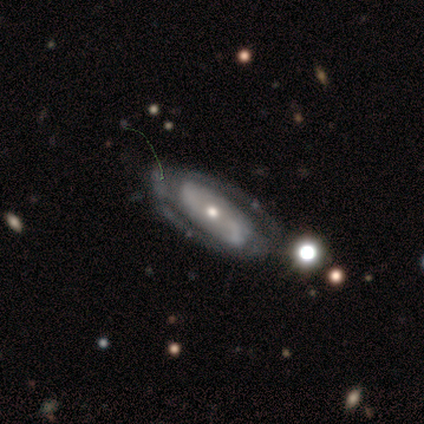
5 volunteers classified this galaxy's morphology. Smooth or featured? featured or disk (100%)
Edge-on disk? no (80%)
Bar? no (100%)
Spiral arms? yes (50%, tied with no)
Spiral winding? tight (50%, tied with loose)
Spiral arm count? 2 (50%, tied with can't tell)
Bulge size? small (100%)
Merging? none (40%, tied with minor disturbance)